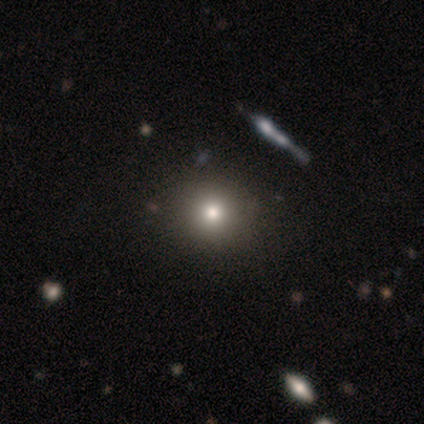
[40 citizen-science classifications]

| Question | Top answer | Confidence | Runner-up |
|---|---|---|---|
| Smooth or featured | smooth | 78% | star or artifact (15%) |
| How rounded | round | 94% | in between (6%) |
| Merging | none | 74% | merger (3%) |